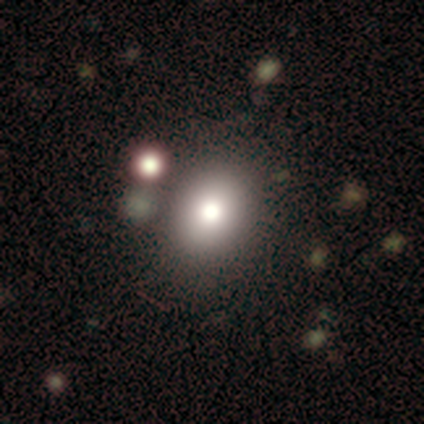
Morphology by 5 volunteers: Smooth or featured? 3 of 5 (60%) said smooth. How rounded? 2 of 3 (67%) said round. Merging? 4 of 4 (100%) said none.